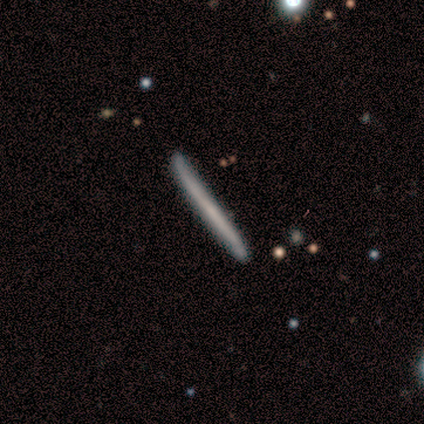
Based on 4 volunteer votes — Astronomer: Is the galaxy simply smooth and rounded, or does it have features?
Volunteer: featured or disk — 75%.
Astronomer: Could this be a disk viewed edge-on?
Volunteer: yes — 100%.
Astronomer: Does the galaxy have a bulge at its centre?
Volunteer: none — 67%.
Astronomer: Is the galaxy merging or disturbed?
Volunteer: none — 75%.